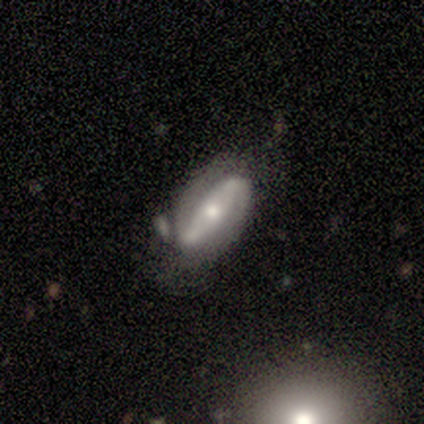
Smooth or featured?
  - featured or disk: 60% *
  - smooth: 40%
  - star or artifact: 0%
Edge-on disk?
  - no: 100% *
  - yes: 0%
Bar?
  - weak: 67% *
  - strong: 33%
  - no: 0%
Spiral arms?
  - yes: 67% *
  - no: 33%
Spiral winding?
  - tight: 50% * (tied)
  - loose: 50% * (tied)
  - medium: 0%
Spiral arm count?
  - 2: 100% *
  - 1: 0%
  - 3: 0%
  - 4: 0%
  - more than 4: 0%
  - can't tell: 0%
Bulge size?
  - small: 67% *
  - moderate: 33%
  - dominant: 0%
  - large: 0%
  - none: 0%
Merging?
  - none: 60% *
  - minor disturbance: 20%
  - major disturbance: 20%
  - merger: 0%